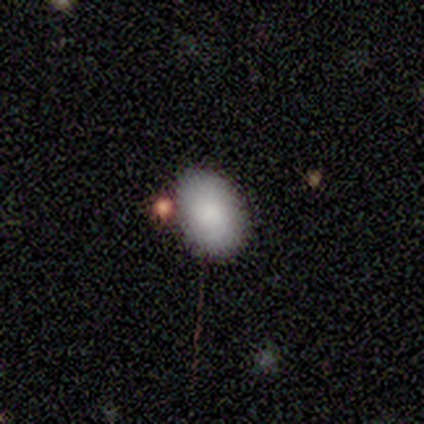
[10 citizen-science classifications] A smooth galaxy with no disk features (80%) that is in between round and cigar-shaped (100%).

Vote fractions:
- Smooth or featured? smooth: 80% / star or artifact: 20% / featured or disk: 0%
- How rounded? in between: 100% / round: 0% / cigar-shaped: 0%
- Merging? none: 62% / minor disturbance: 25% / merger: 12% / major disturbance: 0%